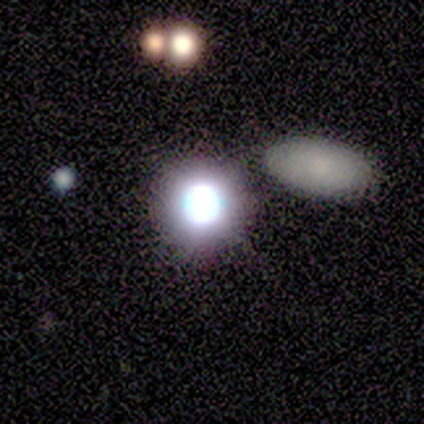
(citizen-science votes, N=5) smooth_or_featured: smooth (p=0.40) [tied with: featured or disk p=0.40]
how_rounded: round (p=1.00)
merging: none (p=1.00)